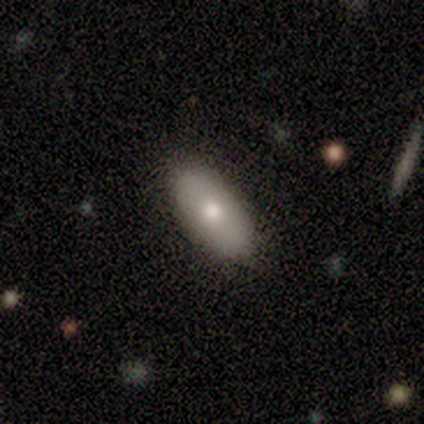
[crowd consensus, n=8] This is likely a smooth galaxy (75%). How rounded: clearly in between (100%). Merging: clearly none (100%).